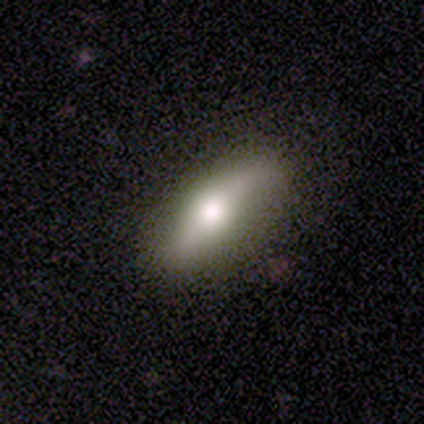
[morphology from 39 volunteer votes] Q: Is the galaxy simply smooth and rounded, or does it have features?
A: smooth — 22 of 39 (56%).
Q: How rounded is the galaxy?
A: cigar-shaped — 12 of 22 (55%).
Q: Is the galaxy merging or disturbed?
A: none — 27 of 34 (79%).